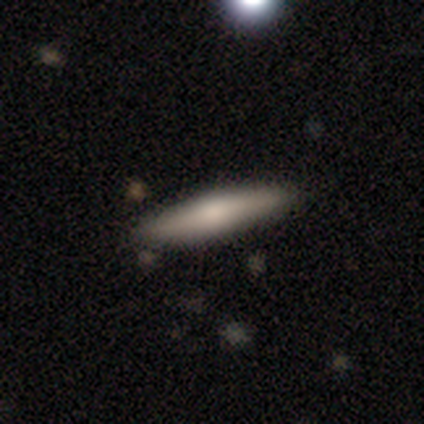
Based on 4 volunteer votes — Smooth or featured: smooth — 100%
How rounded: cigar-shaped — 75% (in between — 25%)
Merging: none — 75% (minor disturbance — 25%)